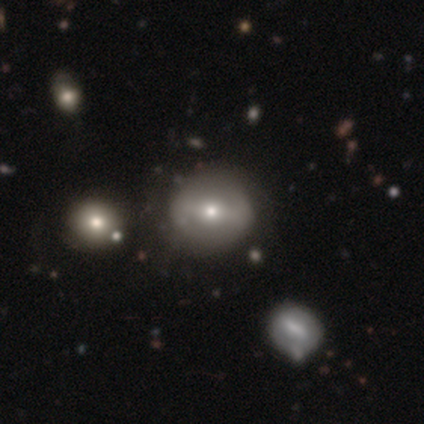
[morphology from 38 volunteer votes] Smooth or featured? 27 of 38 (71%) said featured or disk. Edge-on disk? 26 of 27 (96%) said no. Bar? 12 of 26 (46%) said strong. Spiral arms? 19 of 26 (73%) said no. Bulge size? 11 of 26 (42%) said moderate. Merging? 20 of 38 (53%) said none.